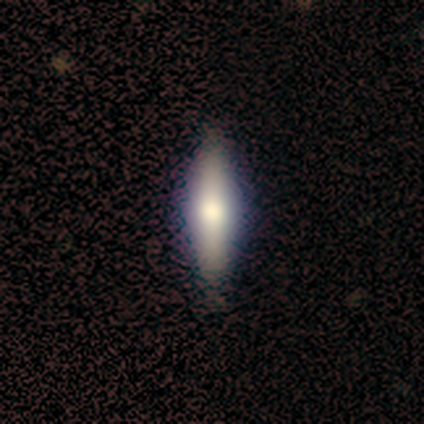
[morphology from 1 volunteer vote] This appears to be a smooth galaxy with no disk features (100%) that is in between round and cigar-shaped (100%). Merging: none (100%).